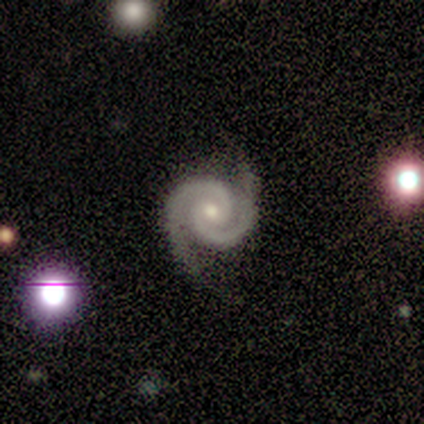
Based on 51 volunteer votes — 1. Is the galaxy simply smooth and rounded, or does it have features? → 94% featured or disk, 4% star or artifact, 2% smooth.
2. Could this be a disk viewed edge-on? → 98% no, 2% yes.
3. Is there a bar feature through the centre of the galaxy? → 62% no, 36% weak, 2% strong.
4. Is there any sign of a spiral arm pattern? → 100% yes, 0% no.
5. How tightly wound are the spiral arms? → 68% tight, 26% medium, 6% loose.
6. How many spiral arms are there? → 100% 2, 0% 1, 0% 3, 0% 4, 0% more than 4, 0% can't tell.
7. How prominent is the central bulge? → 60% moderate, 38% small, 2% dominant, 0% large, 0% none.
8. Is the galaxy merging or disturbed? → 88% none, 10% minor disturbance, 2% major disturbance, 0% merger.